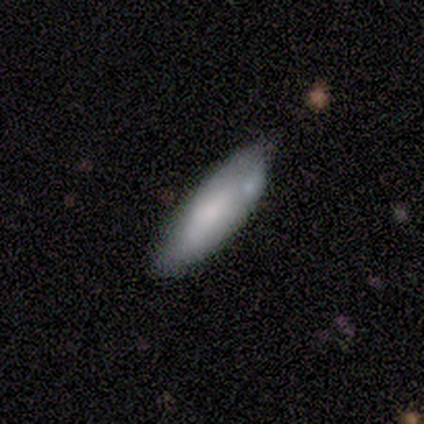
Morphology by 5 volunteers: Smooth or featured: smooth — 80% (featured or disk — 20%)
How rounded: in between — 50% (tied with cigar-shaped — 50%)
Merging: none — 60% (merger — 40%)